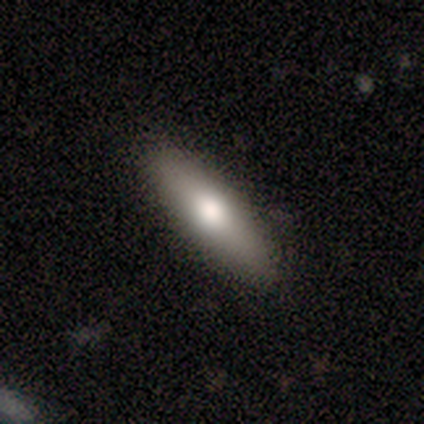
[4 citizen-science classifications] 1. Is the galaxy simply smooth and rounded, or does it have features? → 100% smooth, 0% featured or disk, 0% star or artifact.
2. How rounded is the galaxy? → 75% cigar-shaped, 25% in between, 0% round.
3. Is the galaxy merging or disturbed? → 100% none, 0% minor disturbance, 0% major disturbance, 0% merger.